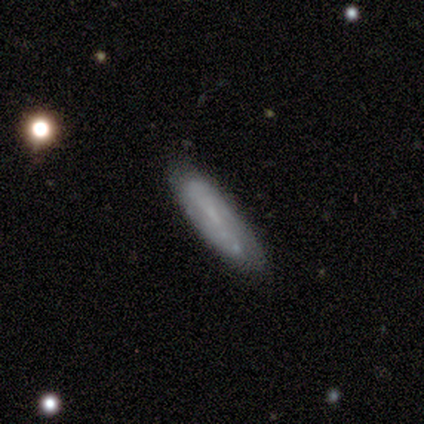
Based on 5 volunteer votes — This is likely a smooth galaxy (60%). How rounded: clearly in between (100%). Merging: marginally none (40%).